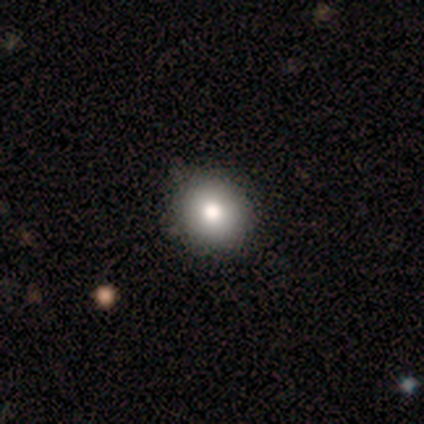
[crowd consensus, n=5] smooth-or-featured: smooth: 80% | star or artifact: 20% | featured or disk: 0%
  how-rounded: round: 100% | in between: 0% | cigar-shaped: 0%
  merging: none: 100% | minor disturbance: 0% | major disturbance: 0% | merger: 0%